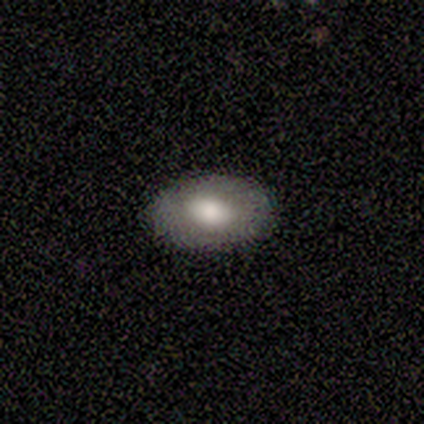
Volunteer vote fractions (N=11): Volunteers were most divided on "smooth or featured": smooth: 82%, featured or disk: 18%, star or artifact: 0%. More confident: how rounded — in between (100%); merging — none (91%).